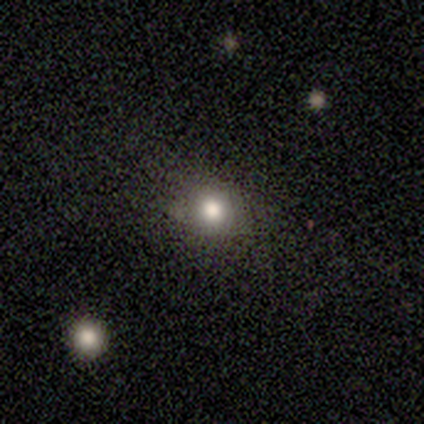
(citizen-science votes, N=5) A smooth galaxy with no disk features (80%) that is round (100%). Merging: none (60%).